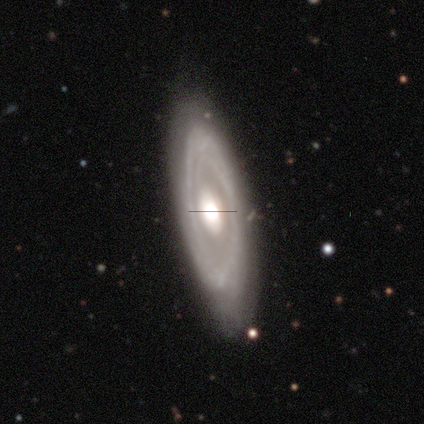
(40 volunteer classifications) Q: Smooth or featured?
A: featured or disk (85%); runner-up: smooth (10%)
Q: Edge-on disk?
A: no (79%); runner-up: yes (21%)
Q: Bar?
A: no (70%); runner-up: weak (22%)
Q: Spiral arms?
A: yes (56%); runner-up: no (44%)
Q: Spiral winding?
A: tight (47%); tied with: medium (47%)
Q: Spiral arm count?
A: 2 (47%); runner-up: can't tell (40%)
Q: Bulge size?
A: moderate (52%); runner-up: large (44%)
Q: Merging?
A: none (74%); runner-up: minor disturbance (13%)